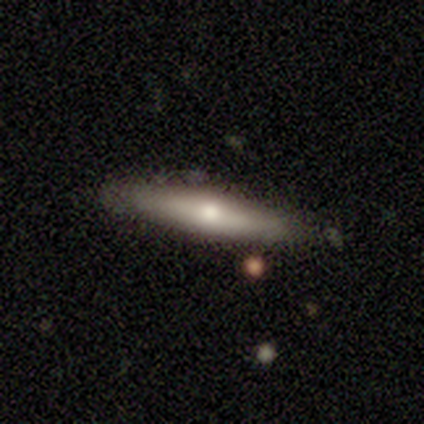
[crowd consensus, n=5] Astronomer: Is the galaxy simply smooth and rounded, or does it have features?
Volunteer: smooth — 80%.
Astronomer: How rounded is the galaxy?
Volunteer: cigar-shaped — 75%.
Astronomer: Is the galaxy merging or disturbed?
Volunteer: minor disturbance — 60% (runner-up: none, 40%).